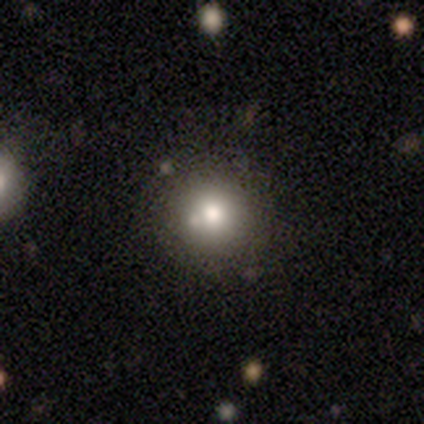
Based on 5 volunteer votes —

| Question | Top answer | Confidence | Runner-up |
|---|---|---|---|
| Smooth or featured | smooth | 80% | star or artifact (20%) |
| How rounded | round | 100% | — |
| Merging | none | 75% | merger (25%) |